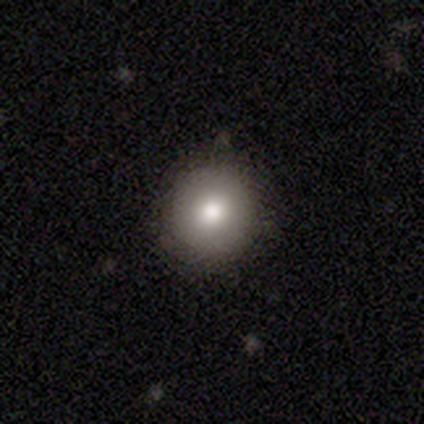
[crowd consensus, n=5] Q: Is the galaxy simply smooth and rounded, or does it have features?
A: smooth — 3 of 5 (60%).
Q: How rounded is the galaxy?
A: round — 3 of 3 (100%).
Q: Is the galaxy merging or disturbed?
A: none — 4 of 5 (80%).